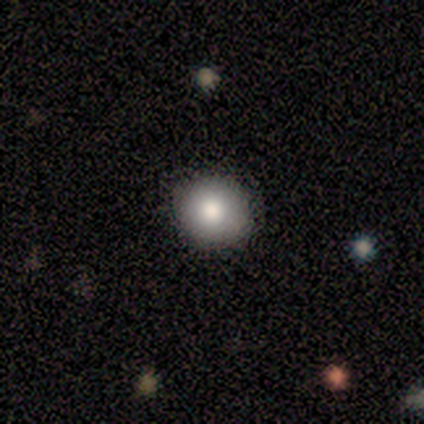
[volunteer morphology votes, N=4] Smooth or featured?
  - smooth: 100% *
  - featured or disk: 0%
  - star or artifact: 0%
How rounded?
  - round: 100% *
  - in between: 0%
  - cigar-shaped: 0%
Merging?
  - none: 100% *
  - minor disturbance: 0%
  - major disturbance: 0%
  - merger: 0%